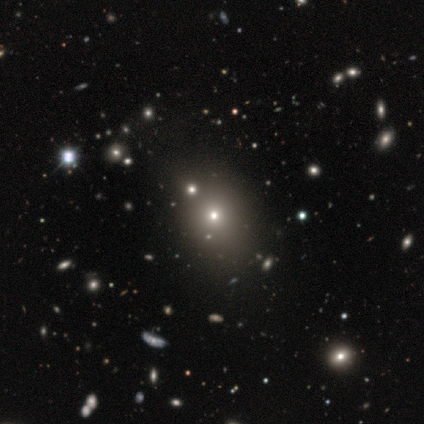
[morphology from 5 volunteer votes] Volunteers were most divided on "smooth or featured": smooth: 60%, star or artifact: 40%, featured or disk: 0%. More confident: how rounded — round (67%); merging — none (67%).